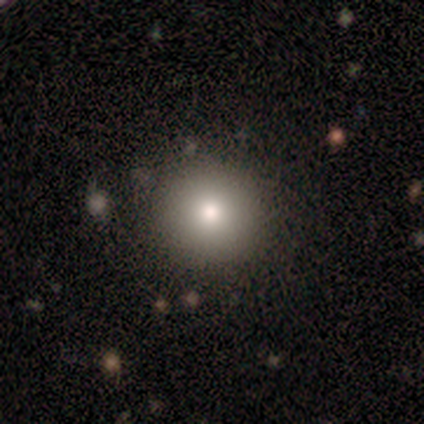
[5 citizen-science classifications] This appears to be a smooth galaxy with no disk features (100%) that is round (100%). Merging: none (80%).